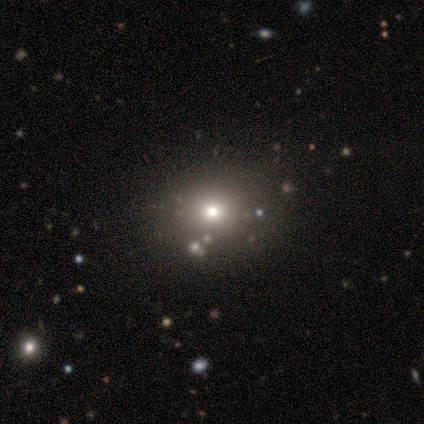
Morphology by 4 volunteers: Smooth or featured? 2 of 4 (50%) said smooth. How rounded? 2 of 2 (100%) said round. Merging? 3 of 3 (100%) said none.